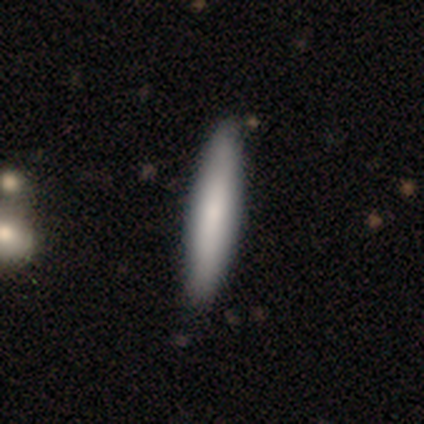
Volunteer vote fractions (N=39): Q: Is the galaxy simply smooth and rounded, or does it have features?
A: smooth — 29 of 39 (74%).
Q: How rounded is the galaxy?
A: cigar-shaped — 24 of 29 (83%).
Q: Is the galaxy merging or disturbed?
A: none — 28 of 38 (74%).